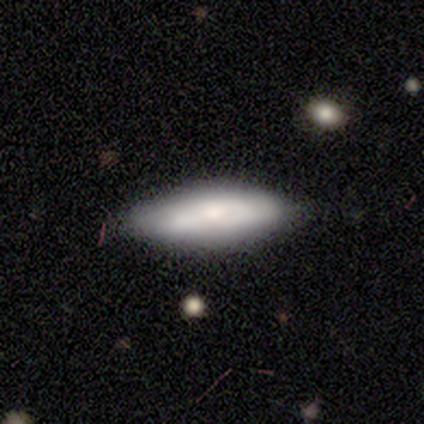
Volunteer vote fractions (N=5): Morphology: type=smooth (60%); roundness=in between (100%); merging=none (40%, tied with major disturbance).